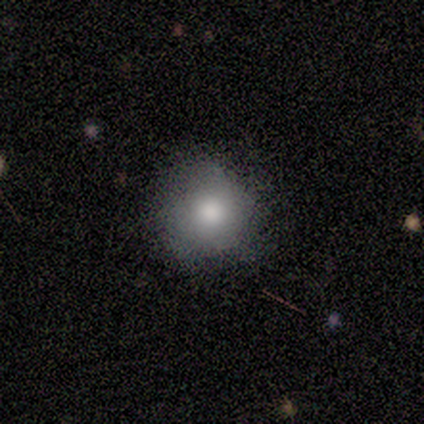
Morphology: type=smooth (100%); roundness=round (100%); merging=none (60%).